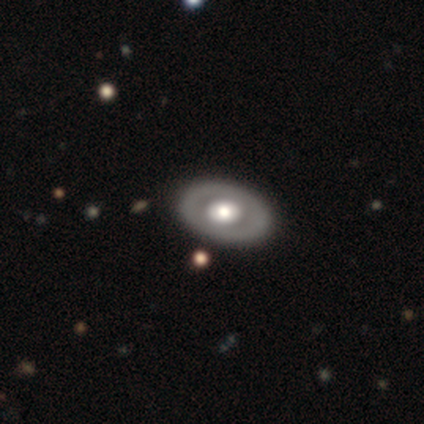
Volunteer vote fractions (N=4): Smooth or featured? featured or disk (75%)
Edge-on disk? no (100%)
Bar? no (67%)
Spiral arms? no (67%)
Bulge size? moderate (67%)
Merging? none (100%)